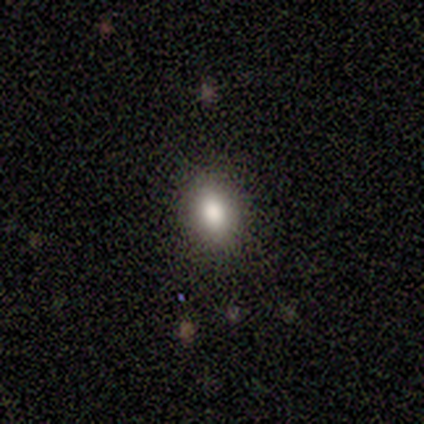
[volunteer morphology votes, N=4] A smooth galaxy with no disk features (100%) that is in between round and cigar-shaped (75%).

Vote fractions:
- Smooth or featured? smooth: 100% / featured or disk: 0% / star or artifact: 0%
- How rounded? in between: 75% / round: 25% / cigar-shaped: 0%
- Merging? none: 100% / minor disturbance: 0% / major disturbance: 0% / merger: 0%